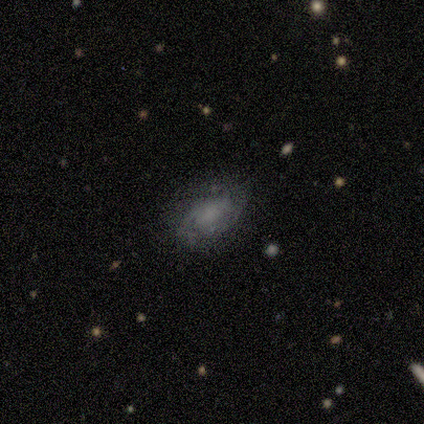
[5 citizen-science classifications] This is likely a smooth galaxy (60%). How rounded: clearly in between (100%). Merging: likely minor disturbance (60%).